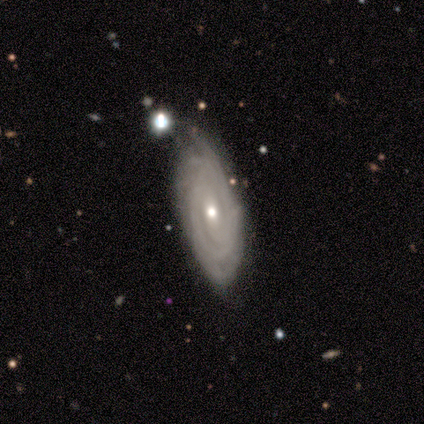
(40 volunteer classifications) Smooth or featured: featured or disk — 92% (smooth — 8%)
Edge-on disk: no — 89% (yes — 11%)
Bar: no — 61% (weak — 21%)
Spiral arms: yes — 94% (no — 6%)
Spiral winding: tight — 74% (medium — 19%)
Spiral arm count: can't tell — 58% (3 — 13%)
Bulge size: moderate — 52% (small — 45%)
Merging: none — 65% (minor disturbance — 22%)